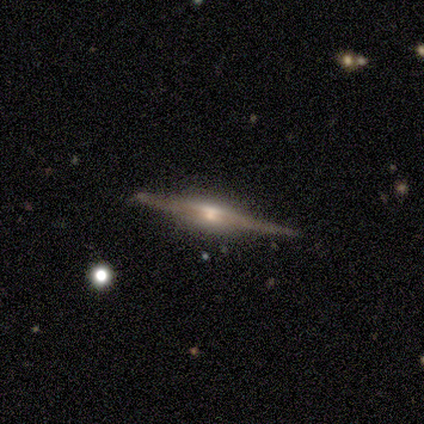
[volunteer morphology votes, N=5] Volunteers were most divided on "edge-on bulge": rounded: 60%, boxy: 40%, none: 0%. More confident: smooth or featured — featured or disk (100%); edge-on disk — yes (100%); merging — none (80%).